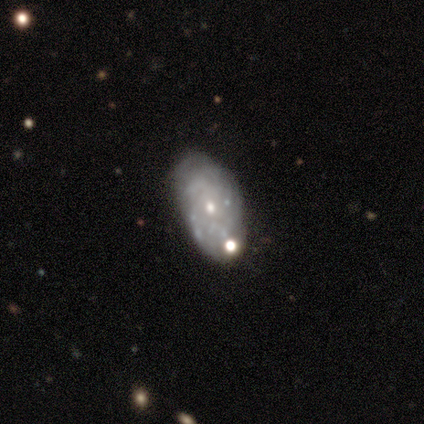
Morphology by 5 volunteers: This appears to be a featured or disk galaxy (100%) with no bar (100%), tight (67%) spiral arms (60%) and a small central bulge (100%). Merging: none (100%).